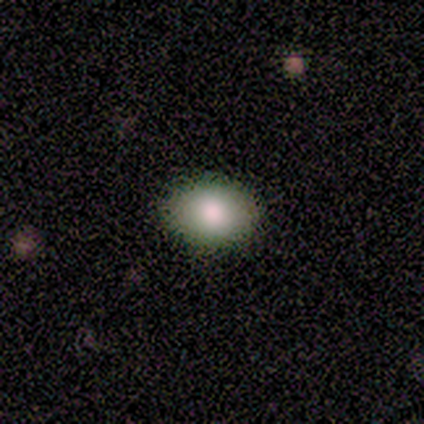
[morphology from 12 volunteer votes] Smooth or featured? 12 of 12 (100%) said smooth. How rounded? 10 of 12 (83%) said in between. Merging? 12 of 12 (100%) said none.